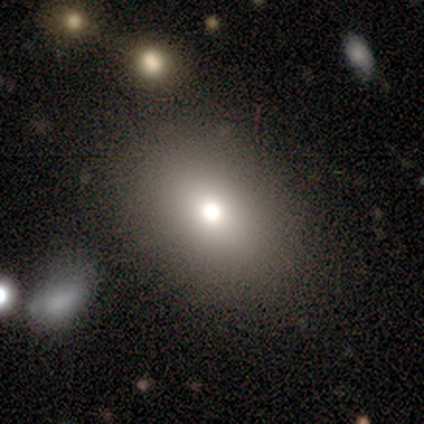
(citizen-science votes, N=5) Smooth or featured: smooth — 80% (featured or disk — 20%)
How rounded: round — 50% (tied with in between — 50%)
Merging: none — 80% (minor disturbance — 20%)